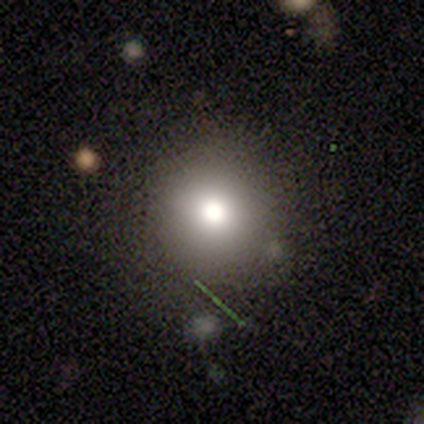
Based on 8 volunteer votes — Smooth or featured? smooth (62%)
How rounded? round (80%)
Merging? none (29%, tied with minor disturbance and major disturbance)